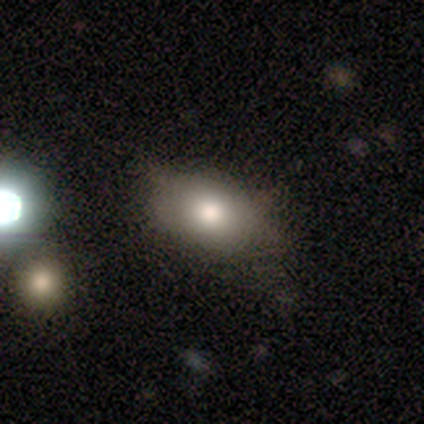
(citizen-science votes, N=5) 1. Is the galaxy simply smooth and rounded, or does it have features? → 40% smooth (tied), 40% star or artifact (tied), 20% featured or disk.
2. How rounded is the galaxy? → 100% in between, 0% round, 0% cigar-shaped.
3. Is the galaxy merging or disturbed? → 67% none, 33% minor disturbance, 0% major disturbance, 0% merger.